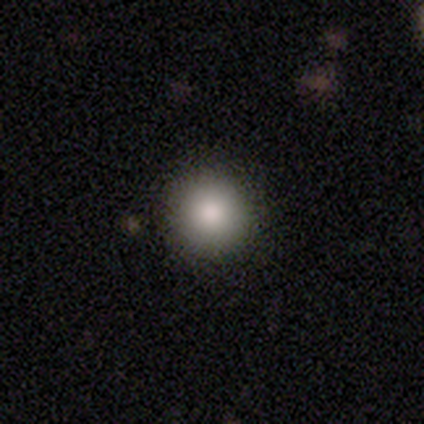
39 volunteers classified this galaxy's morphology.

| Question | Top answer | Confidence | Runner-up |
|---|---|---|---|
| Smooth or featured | smooth | 79% | featured or disk (13%) |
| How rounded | round | 100% | — |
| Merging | none | 83% | minor disturbance (17%) |